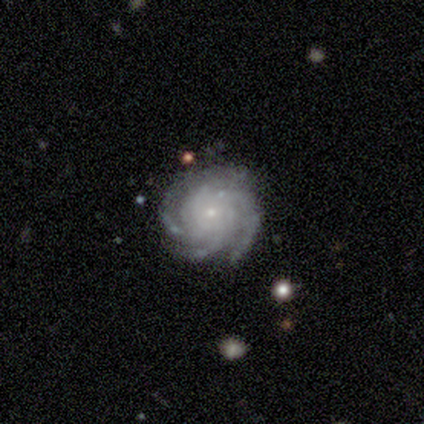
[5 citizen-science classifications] A featured or disk galaxy (100%) with no bar (60%), 4 (40%) tight (80%) spiral arms (100%) and a small central bulge (100%). Merging: none (100%).